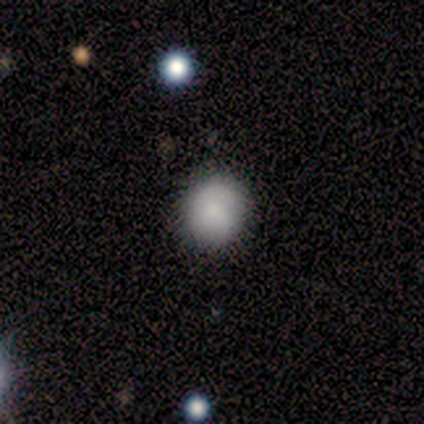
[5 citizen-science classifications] Q: Smooth or featured?
A: smooth (60%); runner-up: featured or disk (40%)
Q: How rounded?
A: in between (67%); runner-up: round (33%)
Q: Merging?
A: none (60%); runner-up: minor disturbance (40%)